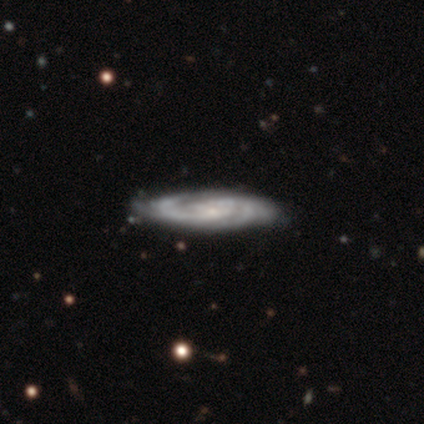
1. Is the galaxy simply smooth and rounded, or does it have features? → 100% featured or disk, 0% smooth, 0% star or artifact.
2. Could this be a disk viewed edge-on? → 100% no, 0% yes.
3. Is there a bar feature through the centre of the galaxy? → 50% no, 25% strong, 25% weak.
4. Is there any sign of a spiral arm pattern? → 100% yes, 0% no.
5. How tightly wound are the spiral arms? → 50% tight (tied), 50% medium (tied), 0% loose.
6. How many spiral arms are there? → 75% 2, 25% can't tell, 0% 1, 0% 3, 0% 4, 0% more than 4.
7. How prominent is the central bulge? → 100% small, 0% dominant, 0% large, 0% moderate, 0% none.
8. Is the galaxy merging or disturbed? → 75% none, 25% minor disturbance, 0% major disturbance, 0% merger.